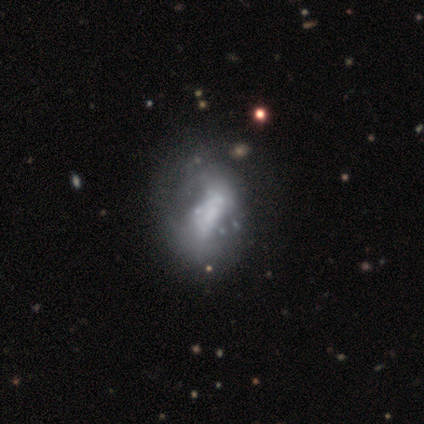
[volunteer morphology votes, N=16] A featured or disk galaxy (69%) with no bar (73%), no spiral arms (91%) and no central bulge (55%).

Vote fractions:
- Smooth or featured? featured or disk: 69% / smooth: 31% / star or artifact: 0%
- Edge-on disk? no: 100% / yes: 0%
- Bar? no: 73% / weak: 18% / strong: 9%
- Spiral arms? no: 91% / yes: 9%
- Bulge size? none: 55% / large: 18% / small: 18% / dominant: 9% / moderate: 0%
- Merging? none: 25% / minor disturbance: 12% / major disturbance: 6% / merger: 6%